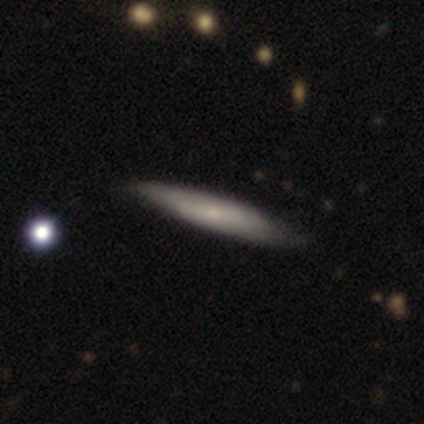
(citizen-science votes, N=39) featured or disk 56%, smooth 41%, star or artifact 3%. Down the decision tree: edge-on disk — yes (86%); edge-on bulge — rounded (63%); merging — none (82%).